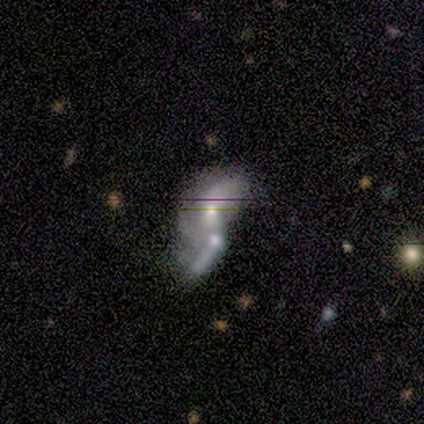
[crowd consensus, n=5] This is likely a smooth galaxy (60%). How rounded: clearly in between (100%). Merging: marginally major disturbance (40%, tied with merger).